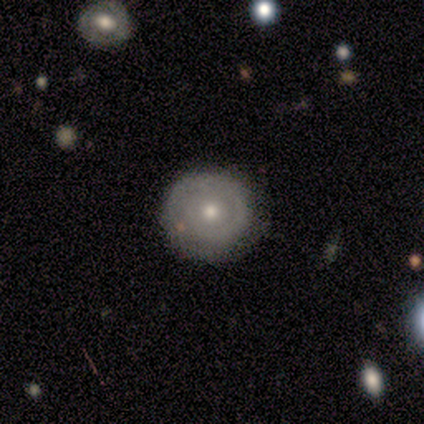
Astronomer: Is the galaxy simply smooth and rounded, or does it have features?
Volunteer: featured or disk — 57% (runner-up: smooth, 43%).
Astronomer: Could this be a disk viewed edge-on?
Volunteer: no — 100%.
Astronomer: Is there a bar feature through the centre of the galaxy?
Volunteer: no — 100%.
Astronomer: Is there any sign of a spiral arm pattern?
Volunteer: yes — 50%, tied with no at 50%.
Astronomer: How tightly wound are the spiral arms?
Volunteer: tight — 100%.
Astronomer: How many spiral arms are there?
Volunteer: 1 — 50%, tied with 2 at 50%.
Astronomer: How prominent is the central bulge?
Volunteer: moderate — 75%.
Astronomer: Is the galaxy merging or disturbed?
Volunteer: none — 86%.